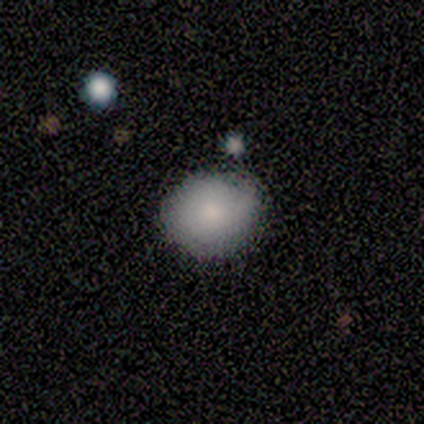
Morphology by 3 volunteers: Smooth or featured: smooth — 67% (featured or disk — 33%)
How rounded: round — 100%
Merging: none — 67% (minor disturbance — 33%)